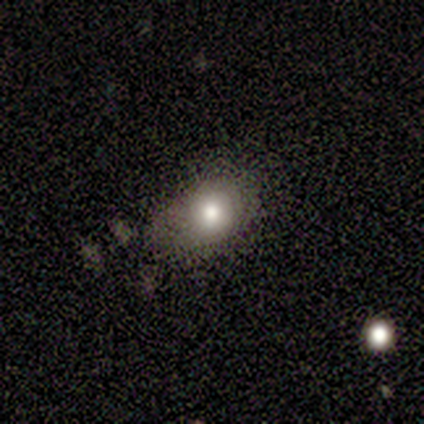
smooth 100%, featured or disk 0%, star or artifact 0%. Down the decision tree: how rounded — in between (80%); merging — minor disturbance (60%).